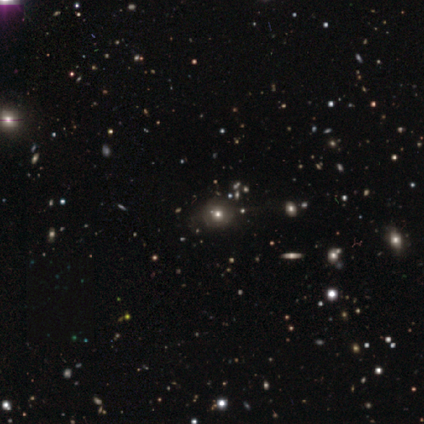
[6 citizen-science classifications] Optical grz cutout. It shows a smooth galaxy with no disk features (50%, tied with star or artifact) that is round (67%). Merging: none (67%).